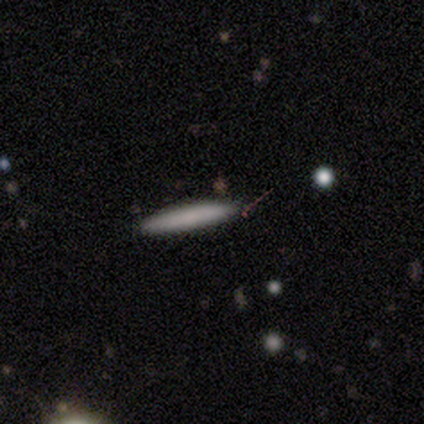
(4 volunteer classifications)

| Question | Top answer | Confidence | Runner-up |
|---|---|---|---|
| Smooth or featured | smooth | 50% | tied: featured or disk (50%) |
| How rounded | cigar-shaped | 100% | — |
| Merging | none | 100% | — |